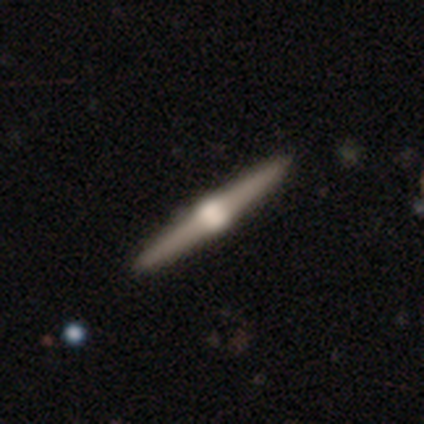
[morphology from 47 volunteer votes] featured or disk 89%, star or artifact 9%, smooth 2%. Down the decision tree: edge-on disk — yes (100%); edge-on bulge — rounded (86%); merging — none (93%).